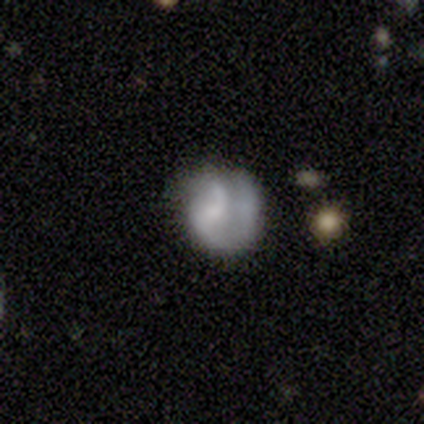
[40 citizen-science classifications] featured or disk 52%, smooth 45%, star or artifact 2%. Down the decision tree: edge-on disk — no (100%); bar — no (57%); spiral arms — yes (71%); spiral arm count — 2 (47%); spiral winding — loose (60%); bulge size — small (43%); merging — none (44%).